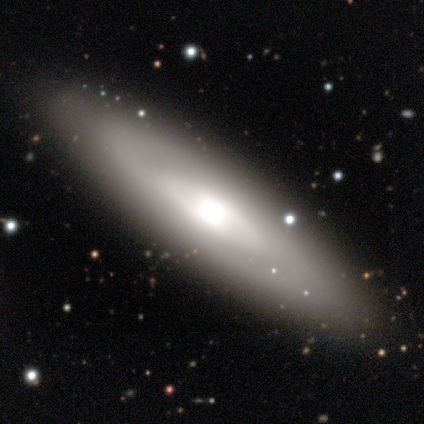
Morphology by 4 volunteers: smooth 50% (tied), featured or disk 50% (tied), star or artifact 0%. Down the decision tree: how rounded — in between (50%, tied with cigar-shaped); merging — none (100%).